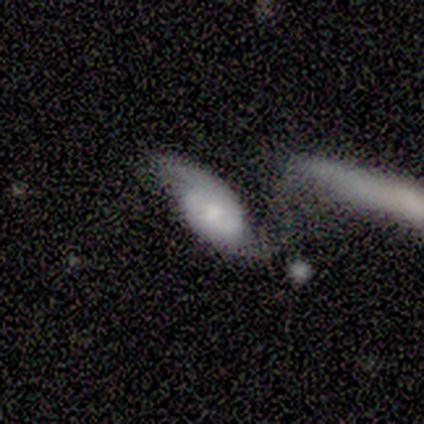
This is clearly a featured or disk galaxy (80%). It is likely not viewed edge-on (75%). Bar: clearly no (100%). Spiral arm pattern: clearly yes (100%). Spiral arm count: likely 2 (67%). Spiral winding: marginally tight (33%, tied with medium and loose). Central bulge: likely moderate (67%). Merging: marginally none (40%, tied with major disturbance).